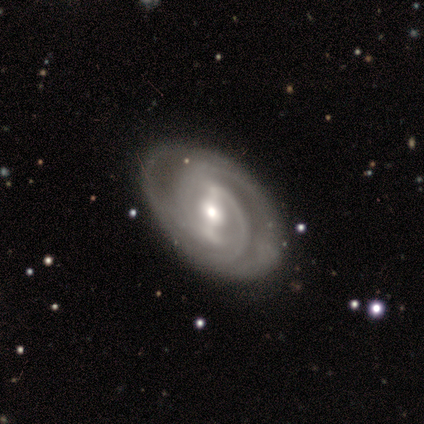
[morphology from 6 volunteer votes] A featured or disk galaxy (100%) with a strong bar (83%), 2 (50%) tight (50%, tied with medium) spiral arms (100%) and a moderate central bulge (83%).

Vote fractions:
- Smooth or featured? featured or disk: 100% / smooth: 0% / star or artifact: 0%
- Edge-on disk? no: 100% / yes: 0%
- Bar? strong: 83% / weak: 17% / no: 0%
- Spiral arms? yes: 100% / no: 0%
- Spiral winding? tight: 50% (tied) / medium: 50% (tied) / loose: 0%
- Spiral arm count? 2: 50% / can't tell: 33% / 4: 17% / 1: 0% / 3: 0% / more than 4: 0%
- Bulge size? moderate: 83% / small: 17% / dominant: 0% / large: 0% / none: 0%
- Merging? none: 83% / minor disturbance: 17% / major disturbance: 0% / merger: 0%